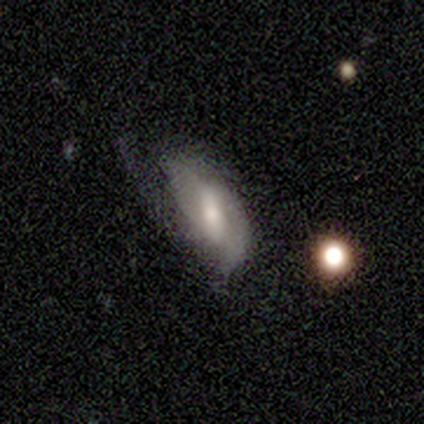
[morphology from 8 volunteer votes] Overall: featured or disk (62%; smooth 25%). Edge-on disk: no (100%). Bar: weak (60%; strong 40%). Spiral arms: yes (60%; no 40%). Spiral arm count: 2 (100%). Spiral winding: tight (67%; loose 33%). Bulge size: moderate (80%). Merging: minor disturbance (43%, tied with major disturbance).